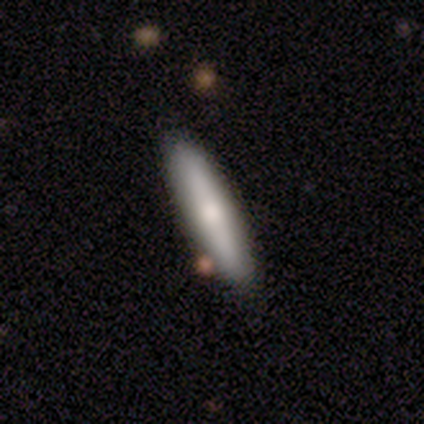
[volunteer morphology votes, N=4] Q: Smooth or featured?
A: smooth (100%)
Q: How rounded?
A: cigar-shaped (100%)
Q: Merging?
A: none (100%)